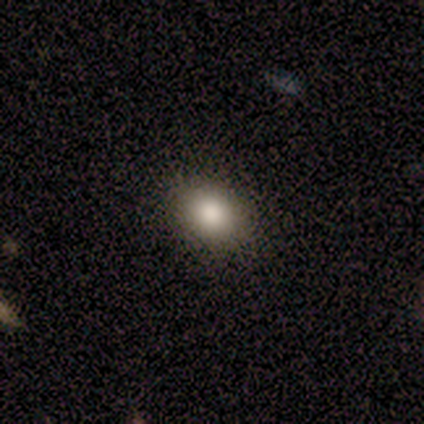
Smooth or featured?
  - smooth: 82% *
  - featured or disk: 9%
  - star or artifact: 9%
How rounded?
  - in between: 67% *
  - round: 33%
  - cigar-shaped: 0%
Merging?
  - none: 80% *
  - minor disturbance: 10%
  - major disturbance: 10%
  - merger: 0%